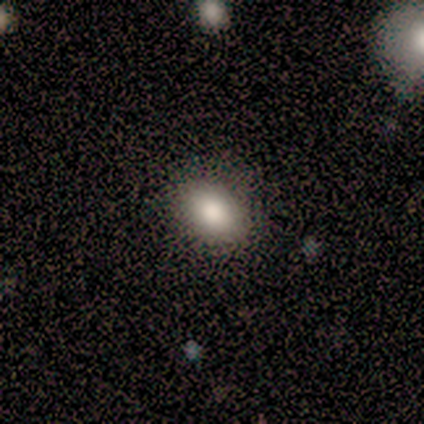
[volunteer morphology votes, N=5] Smooth or featured: smooth — 100%
How rounded: in between — 80% (round — 20%)
Merging: none — 80% (major disturbance — 20%)